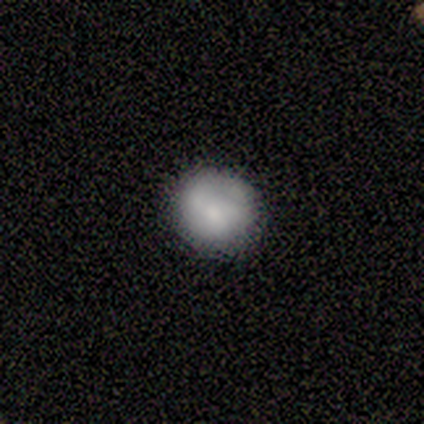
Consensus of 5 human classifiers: A smooth galaxy with no disk features (80%) that is round (75%). Merging: none (100%).